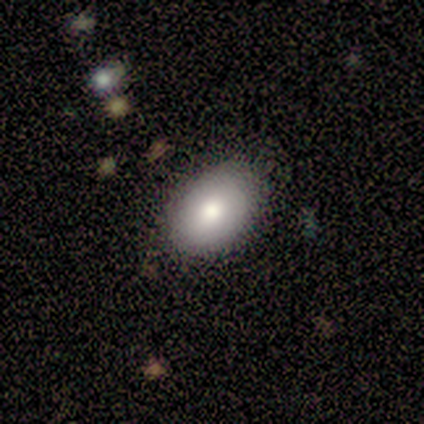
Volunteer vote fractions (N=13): smooth_or_featured: smooth (p=0.77) [alt: featured or disk p=0.23]
how_rounded: in between (p=1.00)
merging: none (p=0.85) [alt: minor disturbance p=0.15]